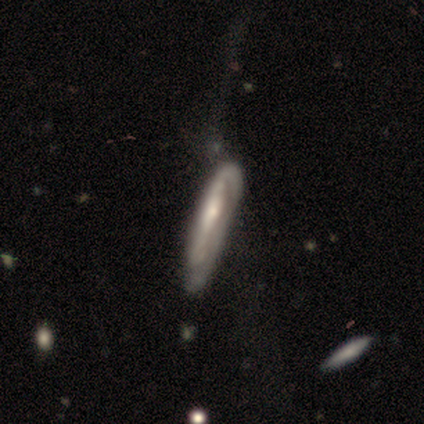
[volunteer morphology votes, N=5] A smooth galaxy with no disk features (40%, tied with featured or disk) that is in between round and cigar-shaped (50%, tied with cigar-shaped). Merging: minor disturbance (75%).